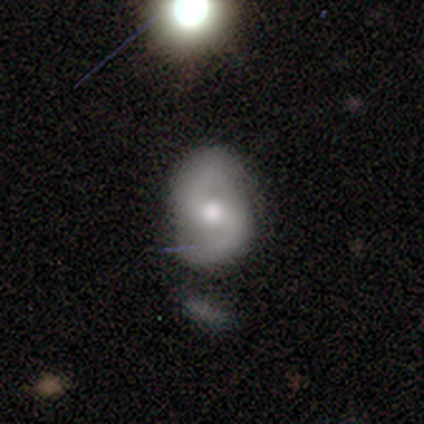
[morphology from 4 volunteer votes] This is clearly a featured or disk galaxy (100%). It is clearly not viewed edge-on (100%). Bar: possibly weak (50%, tied with no). Spiral arm pattern: clearly yes (100%). Spiral arm count: clearly 2 (100%). Spiral winding: possibly medium (50%, tied with loose). Central bulge: likely moderate (75%). Merging: likely none (75%).